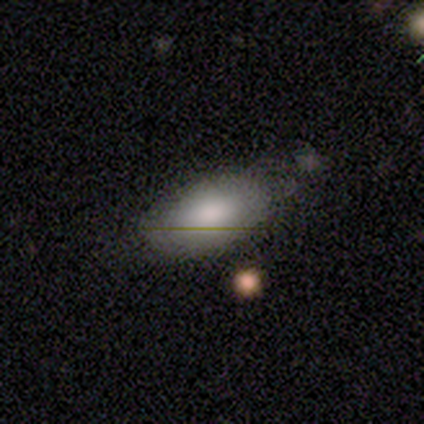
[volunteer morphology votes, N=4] This appears to be a smooth galaxy with no disk features (75%) that is in between round and cigar-shaped (100%). Merging: minor disturbance (67%).